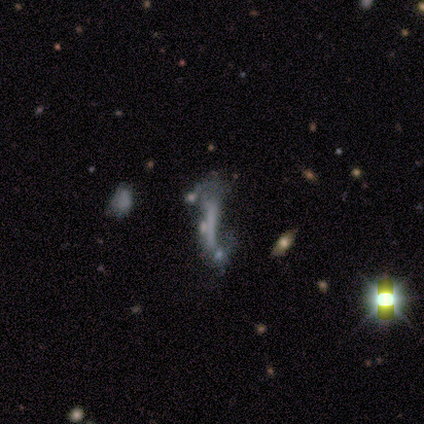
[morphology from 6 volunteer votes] smooth-or-featured: smooth: 33% (tied) | featured or disk: 33% (tied) | star or artifact: 33% (tied)
  how-rounded: cigar-shaped: 100% | round: 0% | in between: 0%
  merging: none: 50% (tied) | major disturbance: 50% (tied) | minor disturbance: 0% | merger: 0%